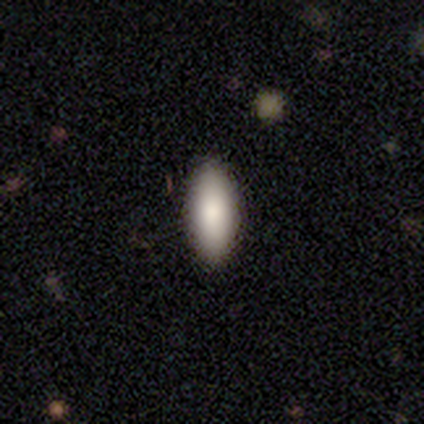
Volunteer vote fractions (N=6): Volunteers were most divided on "smooth or featured": smooth: 67%, star or artifact: 33%, featured or disk: 0%. More confident: how rounded — in between (100%); merging — none (75%).